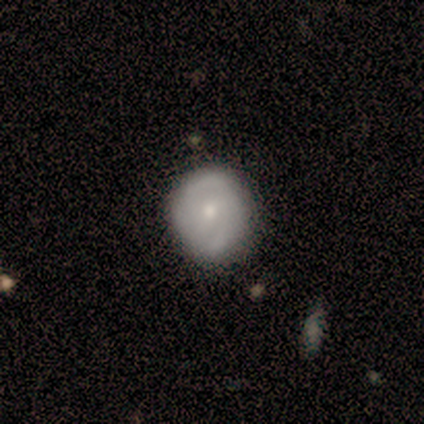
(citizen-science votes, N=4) Overall: smooth (50%, tied with featured or disk). How rounded: round (50%, tied with in between). Merging: none (75%).